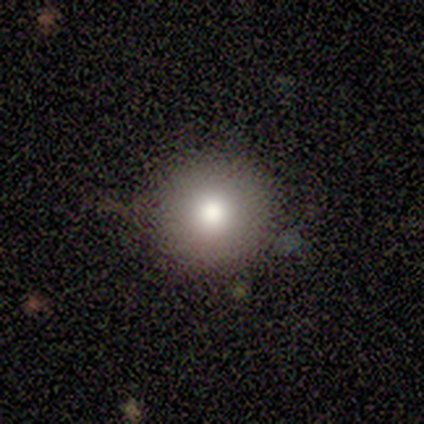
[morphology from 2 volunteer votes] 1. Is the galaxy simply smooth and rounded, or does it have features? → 50% smooth (tied), 50% star or artifact (tied), 0% featured or disk.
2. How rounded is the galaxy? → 100% round, 0% in between, 0% cigar-shaped.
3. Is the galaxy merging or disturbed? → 100% none, 0% minor disturbance, 0% major disturbance, 0% merger.